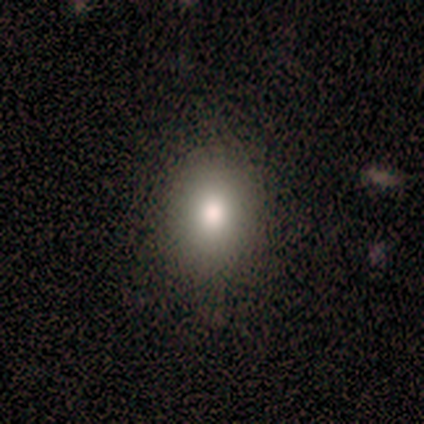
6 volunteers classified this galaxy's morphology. Smooth or featured?
  - smooth: 100% *
  - featured or disk: 0%
  - star or artifact: 0%
How rounded?
  - in between: 67% *
  - round: 33%
  - cigar-shaped: 0%
Merging?
  - none: 100% *
  - minor disturbance: 0%
  - major disturbance: 0%
  - merger: 0%